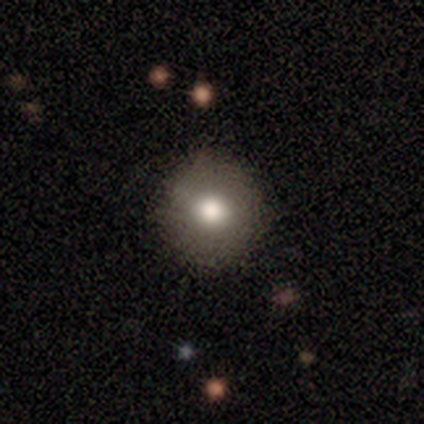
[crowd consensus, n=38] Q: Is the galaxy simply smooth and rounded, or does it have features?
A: smooth — 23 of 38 (61%).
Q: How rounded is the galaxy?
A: round — 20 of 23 (87%).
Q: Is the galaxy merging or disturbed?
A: none — 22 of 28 (79%).